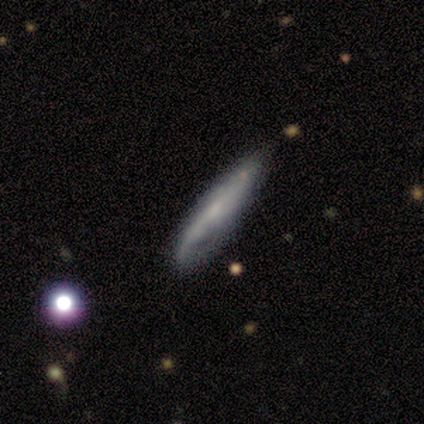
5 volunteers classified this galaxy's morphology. This appears to be a featured or disk galaxy (60%) viewed edge-on (67%) with no central bulge (100%). Merging: none (80%).